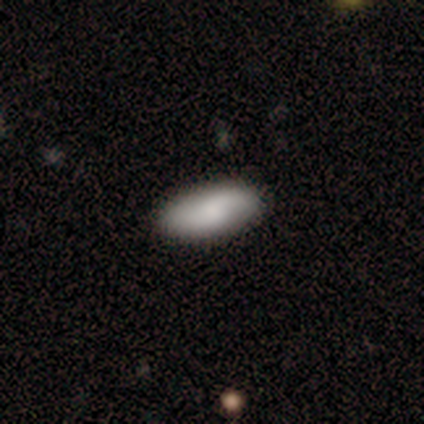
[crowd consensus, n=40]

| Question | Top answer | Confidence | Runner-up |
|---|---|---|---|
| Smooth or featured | smooth | 60% | featured or disk (32%) |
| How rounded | in between | 83% | cigar-shaped (17%) |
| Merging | none | 78% | major disturbance (3%) |